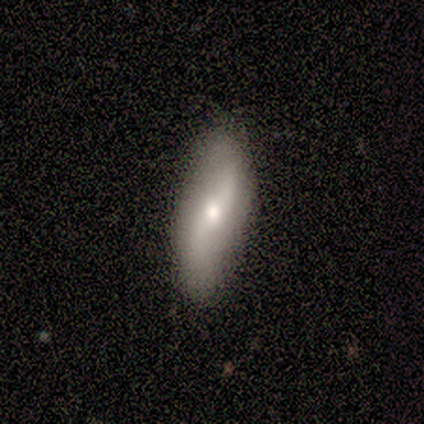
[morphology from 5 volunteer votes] Smooth or featured? smooth (60%)
How rounded? cigar-shaped (67%)
Merging? none (100%)